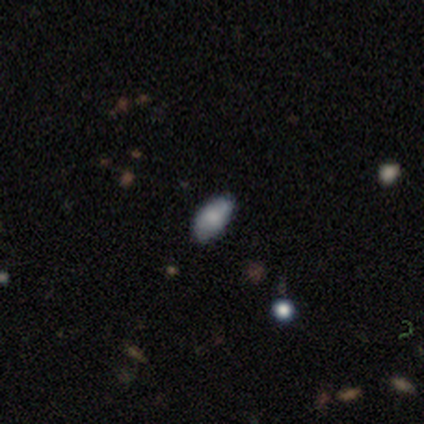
Smooth or featured? 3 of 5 (60%) said smooth. How rounded? 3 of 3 (100%) said in between. Merging? 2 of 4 (50%) said none.